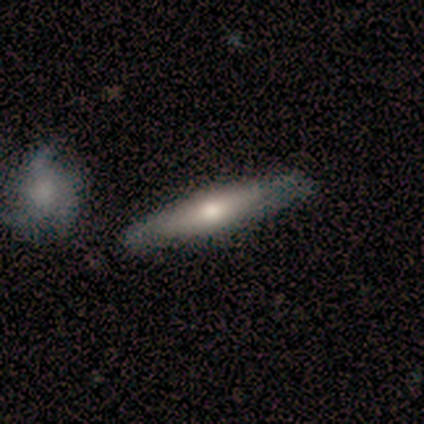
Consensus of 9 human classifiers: Overall: smooth (44%, tied with featured or disk). How rounded: cigar-shaped (100%). Merging: none (88%).